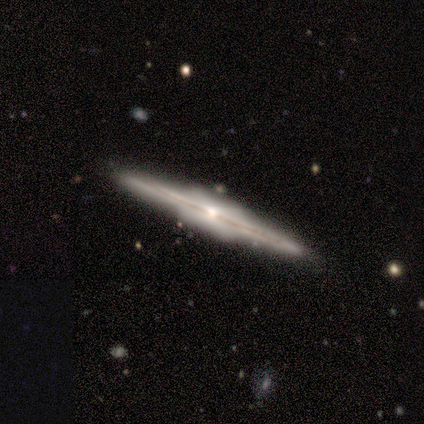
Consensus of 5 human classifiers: Smooth or featured? 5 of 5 (100%) said featured or disk. Edge-on disk? 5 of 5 (100%) said yes. Edge-on bulge? 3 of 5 (60%) said boxy. Merging? 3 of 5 (60%) said minor disturbance.